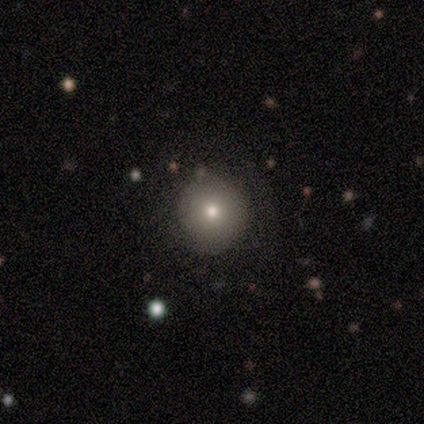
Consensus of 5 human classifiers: This is likely a smooth galaxy (60%). How rounded: clearly round (100%). Merging: clearly none (80%).